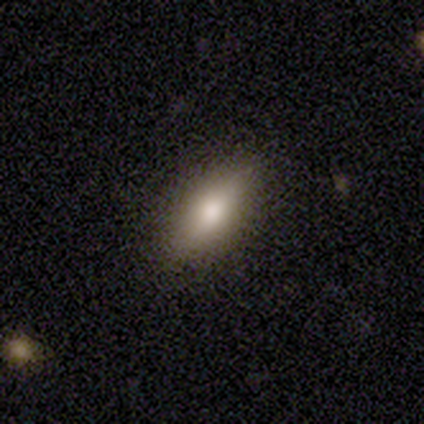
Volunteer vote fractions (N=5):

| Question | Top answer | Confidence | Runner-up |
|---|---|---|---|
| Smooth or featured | smooth | 80% | featured or disk (20%) |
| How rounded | in between | 50% | round (25%) |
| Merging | none | 100% | — |